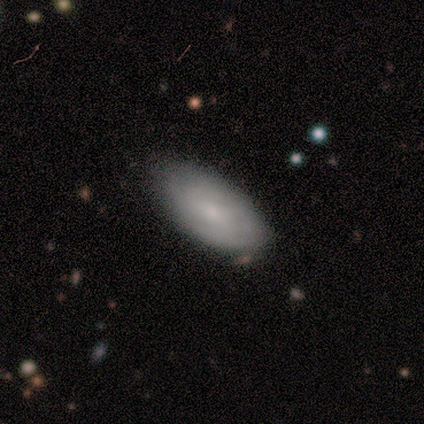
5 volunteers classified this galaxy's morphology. Volunteers were most divided on "how rounded": in between: 75%, cigar-shaped: 25%, round: 0%. More confident: merging — none (100%); smooth or featured — smooth (80%).